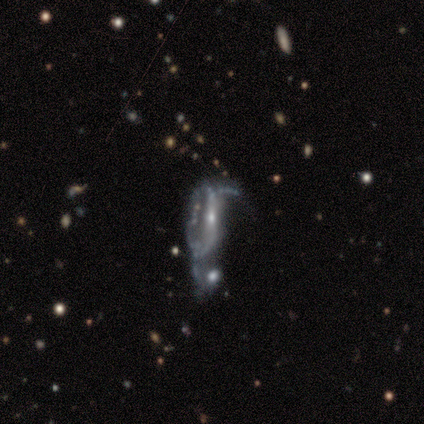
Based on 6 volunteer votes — Morphology: type=featured or disk (50%); edge-on=no (100%); bar=weak (67%); spiral arms=yes (67%); winding=loose (100%); arm count=2 (50%, tied with can't tell); bulge=moderate (100%); merging=merger (50%).